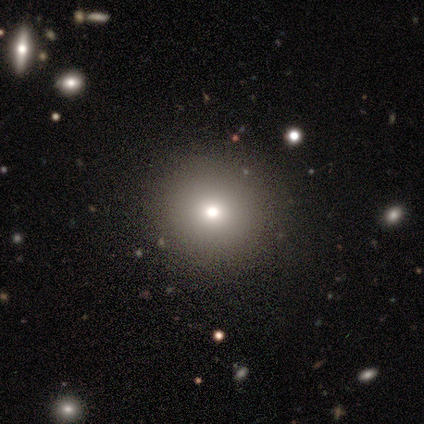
Smooth or featured: smooth — 79% (star or artifact — 16%)
How rounded: round — 97% (cigar-shaped — 3%)
Merging: none — 88% (major disturbance — 9%)